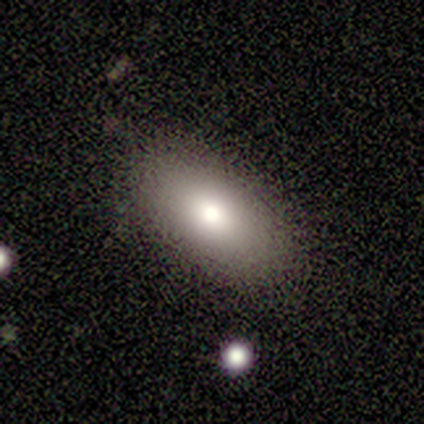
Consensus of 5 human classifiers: smooth_or_featured: smooth (p=0.80) [alt: featured or disk p=0.20]
how_rounded: in between (p=1.00)
merging: none (p=1.00)